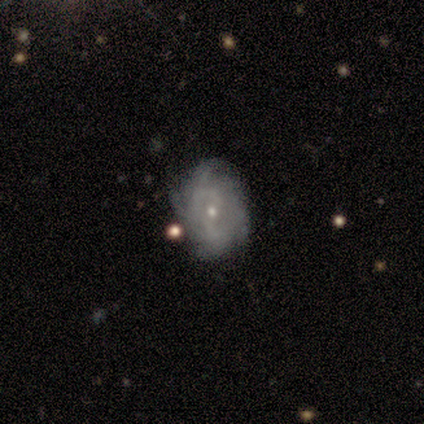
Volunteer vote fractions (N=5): Morphology: type=featured or disk (100%); edge-on=no (100%); bar=no (80%); spiral arms=yes (100%); winding=tight (60%); arm count=4 (40%); bulge=small (100%); merging=none (100%).